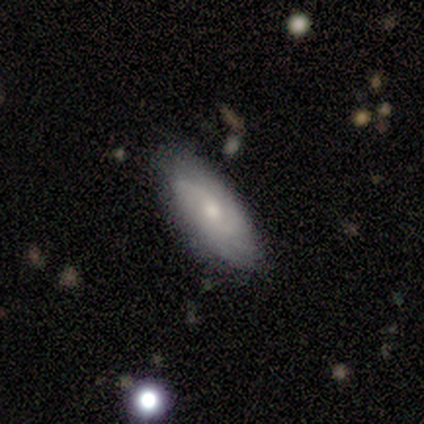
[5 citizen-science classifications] A smooth galaxy with no disk features (80%) that is in between round and cigar-shaped (100%).

Vote fractions:
- Smooth or featured? smooth: 80% / featured or disk: 20% / star or artifact: 0%
- How rounded? in between: 100% / round: 0% / cigar-shaped: 0%
- Merging? none: 100% / minor disturbance: 0% / major disturbance: 0% / merger: 0%